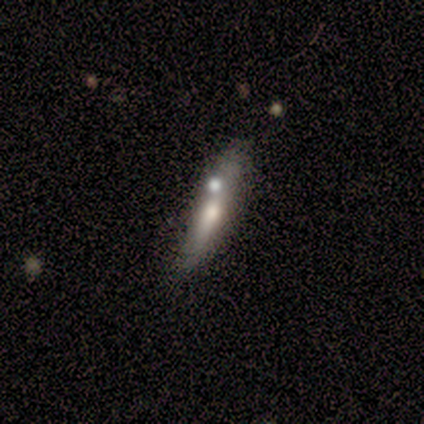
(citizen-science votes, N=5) Smooth or featured?
  - featured or disk: 60% *
  - smooth: 40%
  - star or artifact: 0%
Edge-on disk?
  - yes: 100% *
  - no: 0%
Edge-on bulge?
  - rounded: 67% *
  - none: 33%
  - boxy: 0%
Merging?
  - none: 60% *
  - minor disturbance: 20%
  - merger: 20%
  - major disturbance: 0%